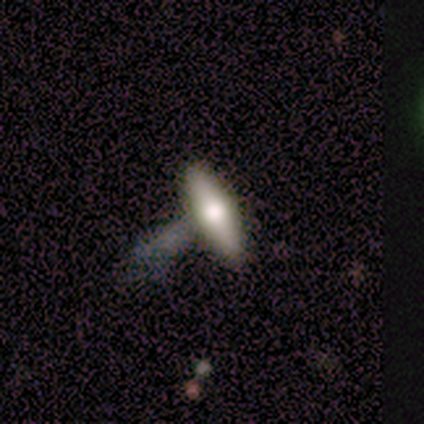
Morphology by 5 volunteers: smooth-or-featured: smooth: 100% | featured or disk: 0% | star or artifact: 0%
  how-rounded: cigar-shaped: 80% | in between: 20% | round: 0%
  merging: none: 60% | major disturbance: 20% | merger: 20% | minor disturbance: 0%